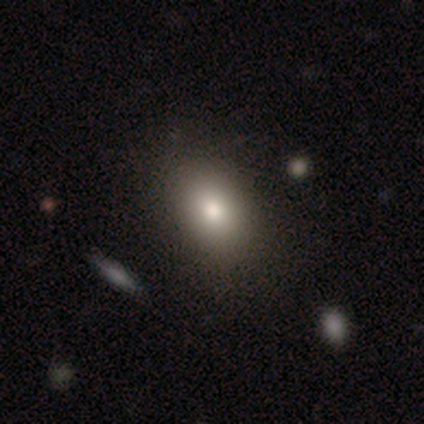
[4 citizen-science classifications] Smooth or featured? 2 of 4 (50%) said star or artifact.